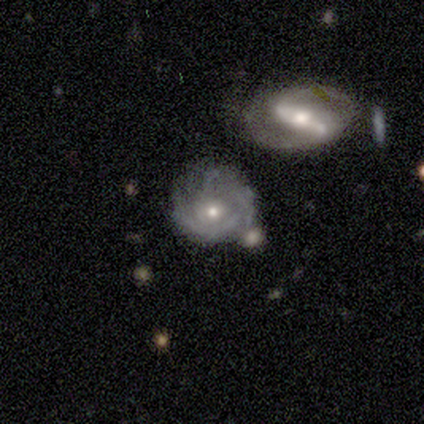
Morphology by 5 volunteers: type=featured or disk (80%); edge-on=no (100%); bar=no (100%); spiral arms=yes (100%); winding=tight (75%); arm count=can't tell (75%); bulge=small (75%); merging=none (50%).